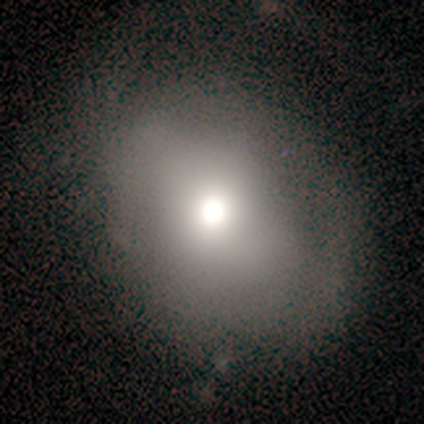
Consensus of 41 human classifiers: Smooth or featured: smooth — 63% (featured or disk — 22%)
How rounded: in between — 54% (round — 46%)
Merging: none — 57% (major disturbance — 23%)